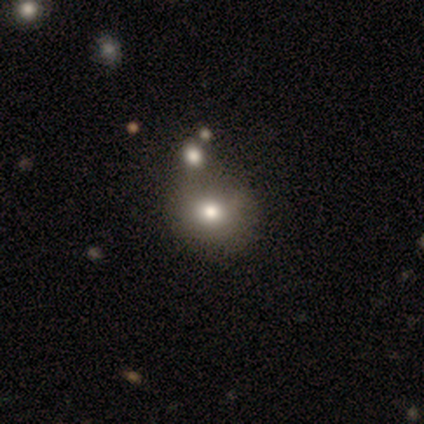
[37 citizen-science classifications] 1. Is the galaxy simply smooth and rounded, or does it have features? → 78% smooth, 19% featured or disk, 3% star or artifact.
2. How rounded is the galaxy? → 83% round, 17% in between, 0% cigar-shaped.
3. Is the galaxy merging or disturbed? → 47% none, 28% merger, 6% minor disturbance, 3% major disturbance.